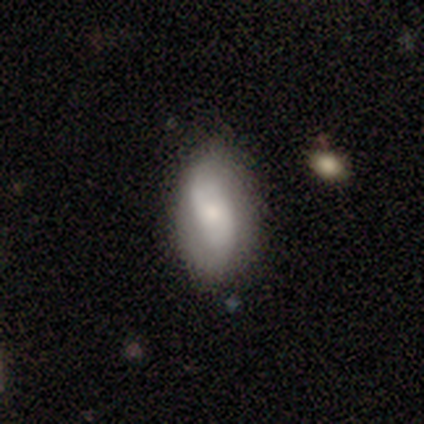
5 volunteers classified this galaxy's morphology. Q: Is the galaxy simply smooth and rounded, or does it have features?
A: featured or disk — 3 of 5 (60%).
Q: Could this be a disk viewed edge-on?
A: no — 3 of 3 (100%).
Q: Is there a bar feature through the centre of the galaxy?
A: no — 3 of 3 (100%).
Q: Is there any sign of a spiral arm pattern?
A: yes — 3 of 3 (100%).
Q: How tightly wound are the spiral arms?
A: loose — 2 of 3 (67%).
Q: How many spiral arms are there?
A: can't tell — 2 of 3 (67%).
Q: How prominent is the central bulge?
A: small — 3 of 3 (100%).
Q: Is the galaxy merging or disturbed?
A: none — 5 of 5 (100%).